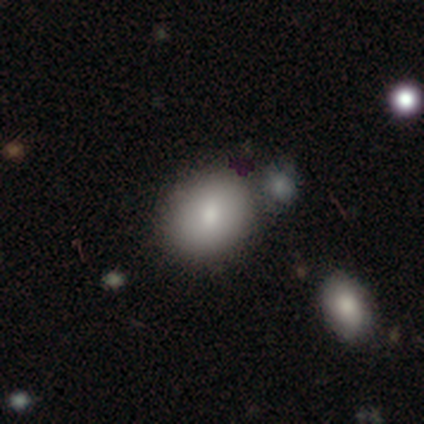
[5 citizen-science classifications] Smooth or featured? smooth (80%)
How rounded? round (50%, tied with in between)
Merging? none (50%)